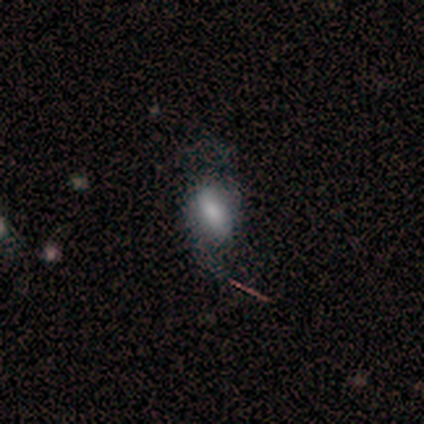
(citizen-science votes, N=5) A smooth galaxy with no disk features (60%) that is in between round and cigar-shaped (100%). Merging: none (80%).